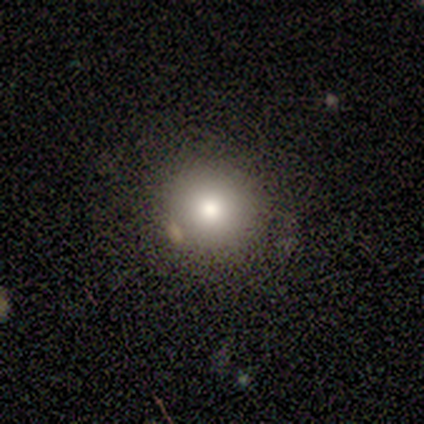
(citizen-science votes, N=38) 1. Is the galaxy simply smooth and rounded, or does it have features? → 82% smooth, 11% featured or disk, 8% star or artifact.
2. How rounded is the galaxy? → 90% round, 10% in between, 0% cigar-shaped.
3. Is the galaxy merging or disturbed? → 83% none, 11% merger, 3% minor disturbance, 3% major disturbance.